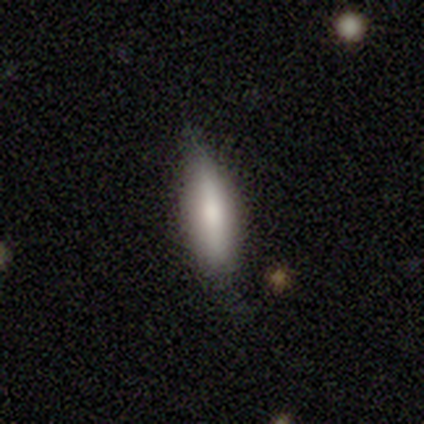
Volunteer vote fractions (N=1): Smooth or featured: smooth — 100%
How rounded: in between — 100%
Merging: minor disturbance — 100%